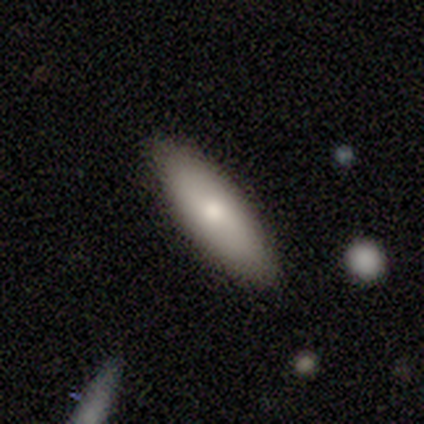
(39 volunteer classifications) smooth 74%, featured or disk 15%, star or artifact 10%. Down the decision tree: how rounded — in between (59%); merging — none (97%).